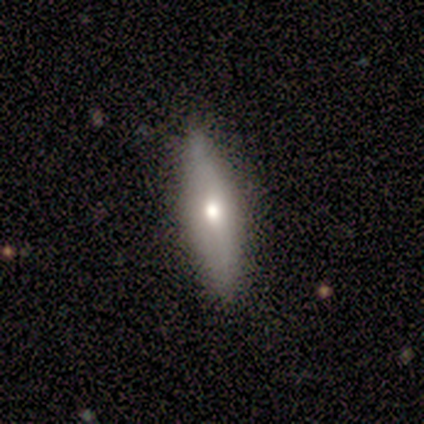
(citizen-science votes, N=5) smooth 60%, featured or disk 40%, star or artifact 0%. Down the decision tree: how rounded — cigar-shaped (67%); merging — none (100%).